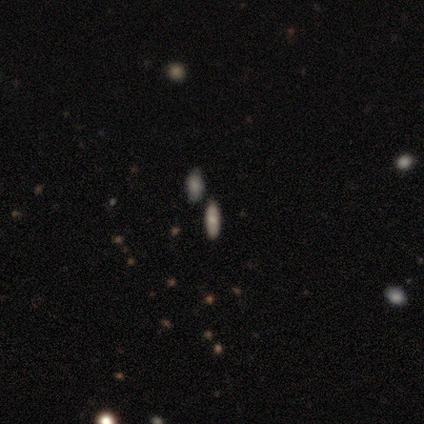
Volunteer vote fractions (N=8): Smooth or featured: smooth — 50% (featured or disk — 25%)
How rounded: in between — 50% (tied with cigar-shaped — 50%)
Merging: none — 100%